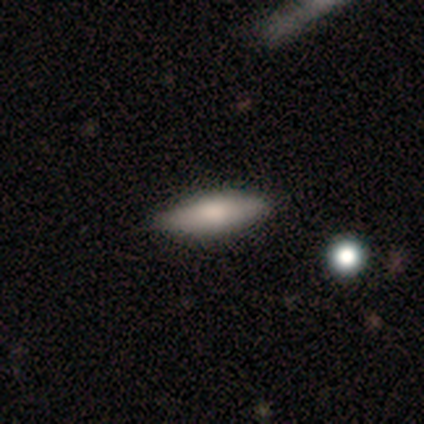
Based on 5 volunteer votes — Morphology: type=smooth (80%); roundness=cigar-shaped (75%); merging=none (60%).